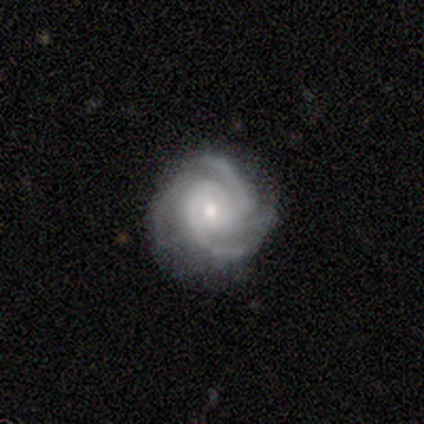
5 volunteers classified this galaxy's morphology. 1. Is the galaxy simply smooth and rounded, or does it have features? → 60% featured or disk, 40% smooth, 0% star or artifact.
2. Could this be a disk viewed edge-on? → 100% no, 0% yes.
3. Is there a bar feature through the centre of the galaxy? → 100% no, 0% strong, 0% weak.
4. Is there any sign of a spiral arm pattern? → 100% yes, 0% no.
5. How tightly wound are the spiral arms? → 67% tight, 33% medium, 0% loose.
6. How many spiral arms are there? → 67% 4, 33% 2, 0% 1, 0% 3, 0% more than 4, 0% can't tell.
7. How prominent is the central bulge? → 67% small, 33% moderate, 0% dominant, 0% large, 0% none.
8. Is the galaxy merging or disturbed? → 80% none, 20% minor disturbance, 0% major disturbance, 0% merger.